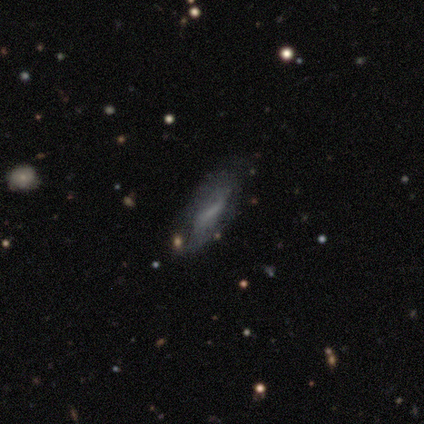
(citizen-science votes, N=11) A featured or disk galaxy (55%) with a weak bar (100%), 2 (50%, tied with can't tell) loose (100%) spiral arms (50%, tied with no) and no central bulge (100%).

Vote fractions:
- Smooth or featured? featured or disk: 55% / smooth: 45% / star or artifact: 0%
- Edge-on disk? no: 67% / yes: 33%
- Bar? weak: 100% / strong: 0% / no: 0%
- Spiral arms? yes: 50% (tied) / no: 50% (tied)
- Spiral winding? loose: 100% / tight: 0% / medium: 0%
- Spiral arm count? 2: 50% (tied) / can't tell: 50% (tied) / 1: 0% / 3: 0% / 4: 0% / more than 4: 0%
- Bulge size? none: 100% / dominant: 0% / large: 0% / moderate: 0% / small: 0%
- Merging? none: 64% / minor disturbance: 36% / major disturbance: 0% / merger: 0%